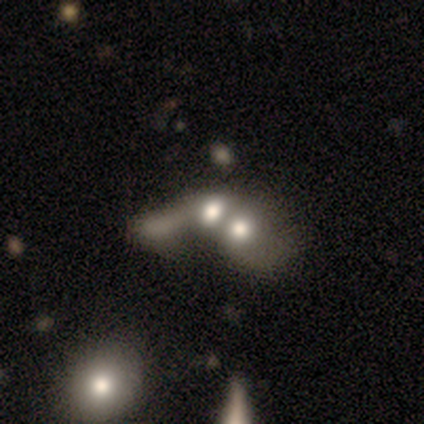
smooth 72%, star or artifact 17%, featured or disk 11%. Down the decision tree: how rounded — in between (73%); merging — merger (60%).